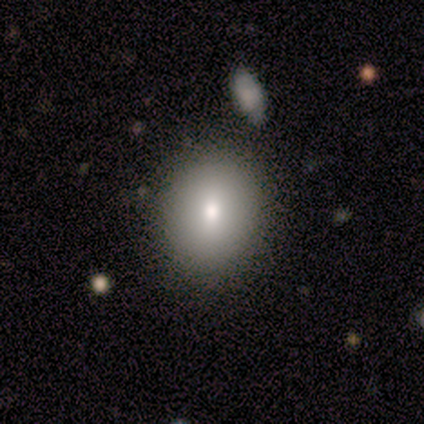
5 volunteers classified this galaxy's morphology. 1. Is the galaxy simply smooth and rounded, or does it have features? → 40% smooth (tied), 40% featured or disk (tied), 20% star or artifact.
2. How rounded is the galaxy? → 100% in between, 0% round, 0% cigar-shaped.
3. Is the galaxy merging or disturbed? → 100% none, 0% minor disturbance, 0% major disturbance, 0% merger.